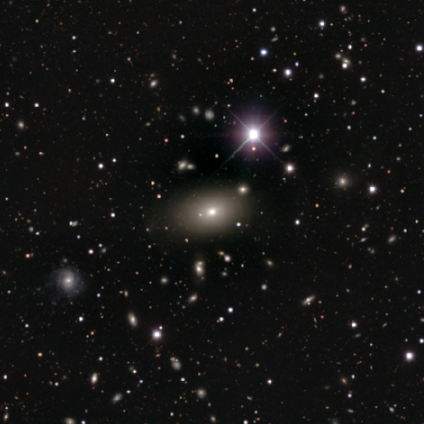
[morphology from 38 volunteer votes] smooth_or_featured: smooth (p=0.61) [alt: star or artifact p=0.26]
how_rounded: in between (p=0.91) [alt: round p=0.09]
merging: none (p=0.86) [alt: minor disturbance p=0.14]